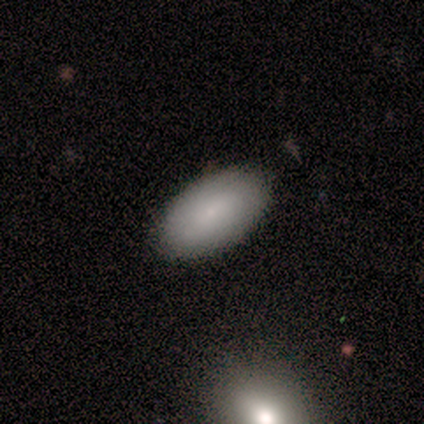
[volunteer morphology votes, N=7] This is clearly a smooth galaxy (100%). How rounded: clearly in between (100%). Merging: clearly none (86%).